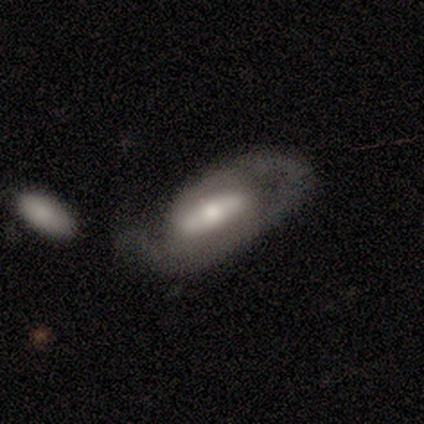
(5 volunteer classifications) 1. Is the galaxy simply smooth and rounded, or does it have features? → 80% featured or disk, 20% smooth, 0% star or artifact.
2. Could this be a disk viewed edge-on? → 75% no, 25% yes.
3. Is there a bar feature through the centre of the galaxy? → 67% strong, 33% no, 0% weak.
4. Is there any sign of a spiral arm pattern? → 67% no, 33% yes.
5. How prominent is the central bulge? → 67% moderate, 33% small, 0% dominant, 0% large, 0% none.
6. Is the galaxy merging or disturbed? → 40% none (tied), 40% major disturbance (tied), 20% merger, 0% minor disturbance.